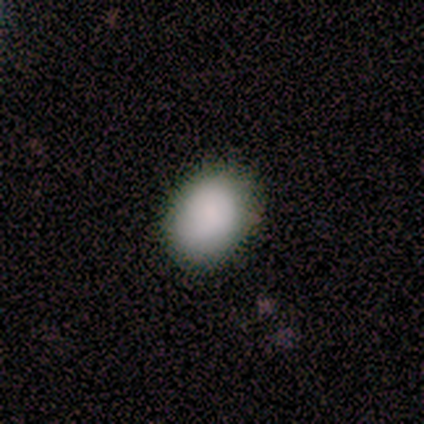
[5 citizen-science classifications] smooth-or-featured: smooth: 100% | featured or disk: 0% | star or artifact: 0%
  how-rounded: in between: 80% | round: 20% | cigar-shaped: 0%
  merging: none: 80% | minor disturbance: 20% | major disturbance: 0% | merger: 0%